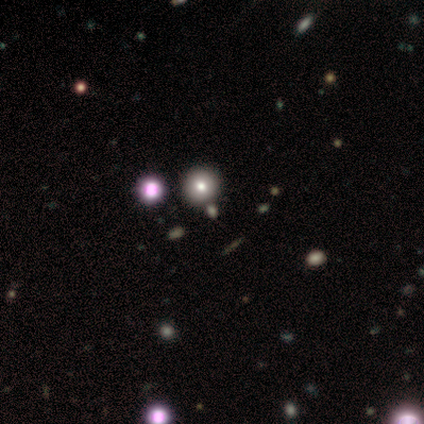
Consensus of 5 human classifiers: Smooth or featured? star or artifact (60%)